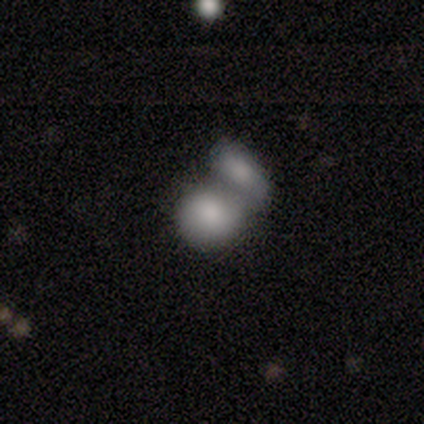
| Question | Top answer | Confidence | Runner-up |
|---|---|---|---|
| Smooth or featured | smooth | 75% | star or artifact (25%) |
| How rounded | round | 67% | in between (33%) |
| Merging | none | 33% | tied: major disturbance (33%), merger (33%) |